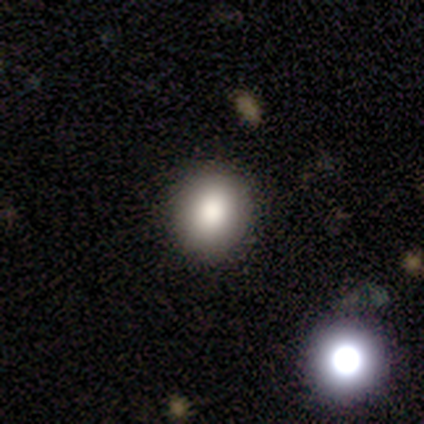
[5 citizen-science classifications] Smooth or featured: smooth — 80% (star or artifact — 20%)
How rounded: in between — 75% (round — 25%)
Merging: none — 100%